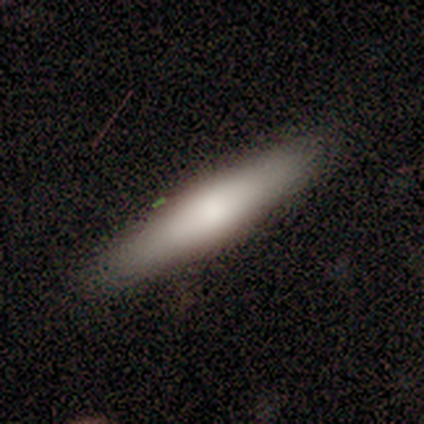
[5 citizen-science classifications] This is clearly a smooth galaxy (80%). How rounded: clearly cigar-shaped (100%). Merging: clearly none (100%).